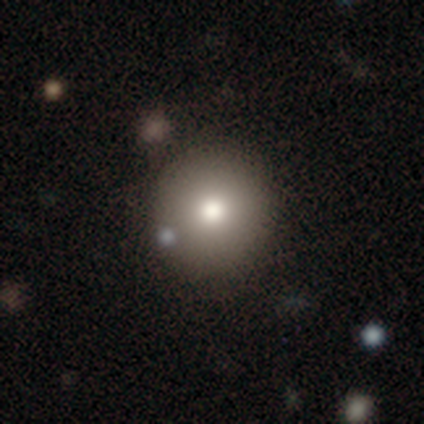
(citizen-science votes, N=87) Q: Smooth or featured?
A: smooth (72%); runner-up: featured or disk (14%)
Q: How rounded?
A: round (92%); runner-up: in between (6%)
Q: Merging?
A: none (81%); runner-up: minor disturbance (15%)